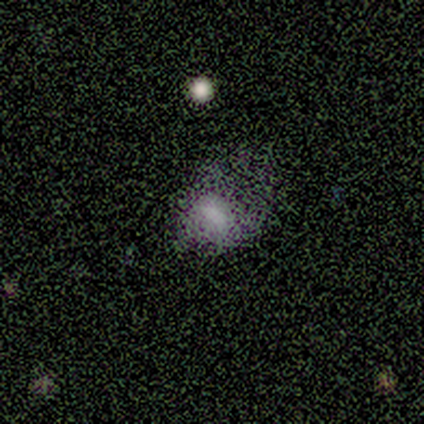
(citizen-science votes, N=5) This is clearly a smooth galaxy (100%). How rounded: clearly in between (80%). Merging: likely major disturbance (60%).